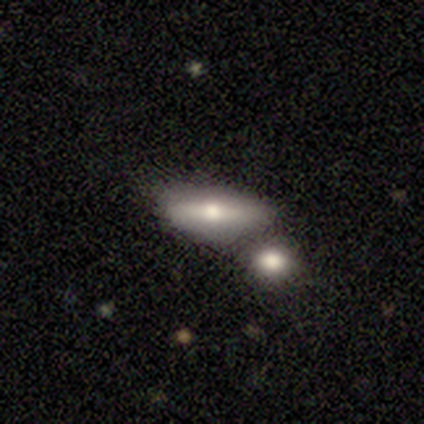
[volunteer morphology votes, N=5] Smooth or featured? 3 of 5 (60%) said smooth. How rounded? 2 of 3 (67%) said in between. Merging? 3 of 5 (60%) said none.